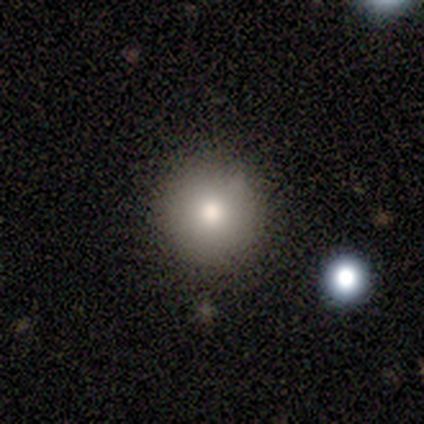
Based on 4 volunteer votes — smooth 75%, star or artifact 25%, featured or disk 0%. Down the decision tree: how rounded — round (100%); merging — none (67%).